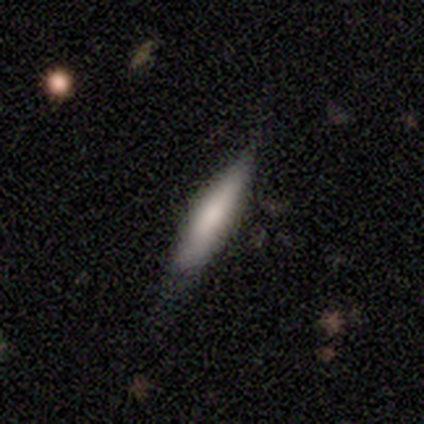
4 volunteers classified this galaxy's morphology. smooth-or-featured: featured or disk: 75% | smooth: 25% | star or artifact: 0%
  disk-edge-on: yes: 100% | no: 0%
    edge-on-bulge: rounded: 67% | none: 33% | boxy: 0%
  merging: none: 75% | minor disturbance: 25% | major disturbance: 0% | merger: 0%